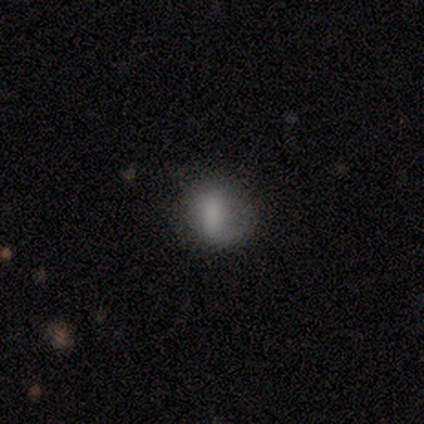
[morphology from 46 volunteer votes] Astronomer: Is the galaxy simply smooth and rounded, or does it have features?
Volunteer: smooth — 43%, tied with featured or disk at 43%.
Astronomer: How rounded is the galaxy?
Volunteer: round — 55% (runner-up: in between, 45%).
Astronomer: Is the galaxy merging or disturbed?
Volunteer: none — 62%.